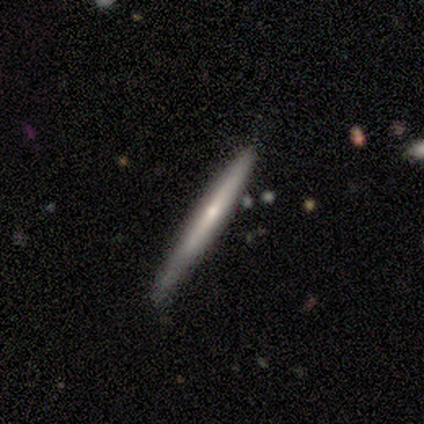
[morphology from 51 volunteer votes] This appears to be a featured or disk galaxy (67%) viewed edge-on (100%) with a rounded central bulge (62%). Merging: none (62%).